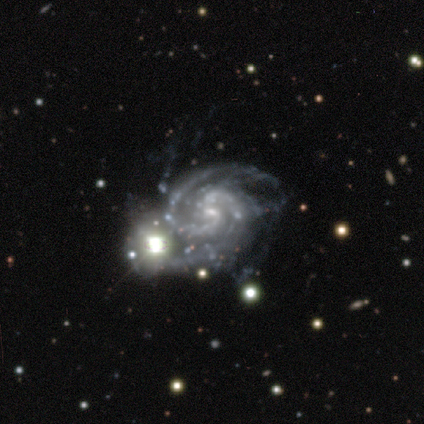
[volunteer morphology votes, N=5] type=featured or disk (100%); edge-on=no (100%); bar=weak (60%); spiral arms=yes (100%); winding=tight (60%); arm count=2 (80%); bulge=small (100%); merging=merger (60%).